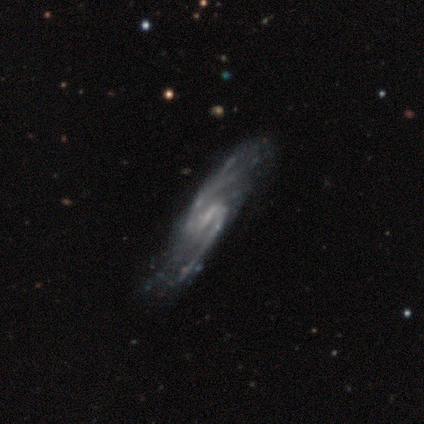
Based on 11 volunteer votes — This appears to be a featured or disk galaxy (91%) with a weak bar (60%), 2 (90%) medium (50%) spiral arms (100%) and a small central bulge (70%). Merging: none (100%).